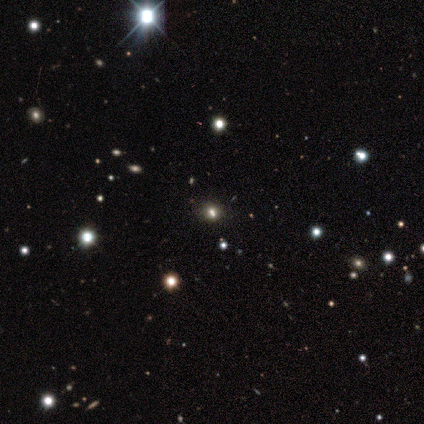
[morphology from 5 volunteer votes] Smooth or featured: smooth — 60% (star or artifact — 40%)
How rounded: round — 100%
Merging: none — 100%